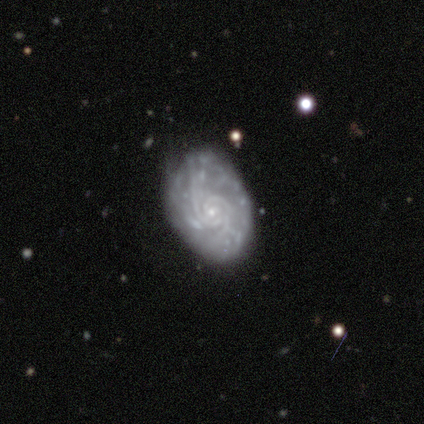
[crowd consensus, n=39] A featured or disk galaxy (92%) with no bar (74%), 2 (55%) tight (70%) spiral arms (94%) and a small central bulge (89%).

Vote fractions:
- Smooth or featured? featured or disk: 92% / smooth: 5% / star or artifact: 3%
- Edge-on disk? no: 97% / yes: 3%
- Bar? no: 74% / weak: 26% / strong: 0%
- Spiral arms? yes: 94% / no: 6%
- Spiral winding? tight: 70% / medium: 18% / loose: 12%
- Spiral arm count? 2: 55% / can't tell: 21% / 3: 9% / 4: 6% / more than 4: 6% / 1: 3%
- Bulge size? small: 89% / moderate: 11% / dominant: 0% / large: 0% / none: 0%
- Merging? none: 58% / minor disturbance: 24% / major disturbance: 13% / merger: 5%